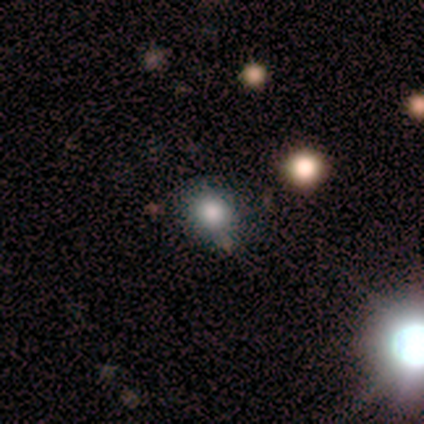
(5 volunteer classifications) smooth_or_featured: smooth (p=0.40) [tied with: featured or disk p=0.40]
how_rounded: round (p=1.00)
merging: none (p=1.00)